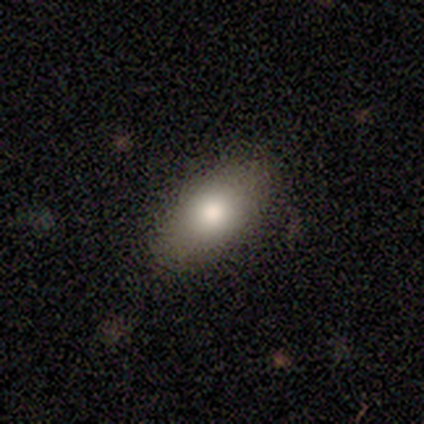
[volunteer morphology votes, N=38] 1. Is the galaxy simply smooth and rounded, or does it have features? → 79% smooth, 16% featured or disk, 5% star or artifact.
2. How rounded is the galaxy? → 90% in between, 10% cigar-shaped, 0% round.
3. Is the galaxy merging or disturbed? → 92% none, 6% minor disturbance, 3% major disturbance, 0% merger.